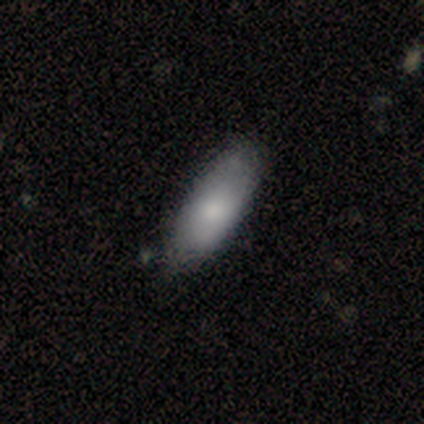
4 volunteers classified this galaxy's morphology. Smooth or featured? 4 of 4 (100%) said smooth. How rounded? 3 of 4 (75%) said in between. Merging? 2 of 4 (50%, tied with minor disturbance) said none.